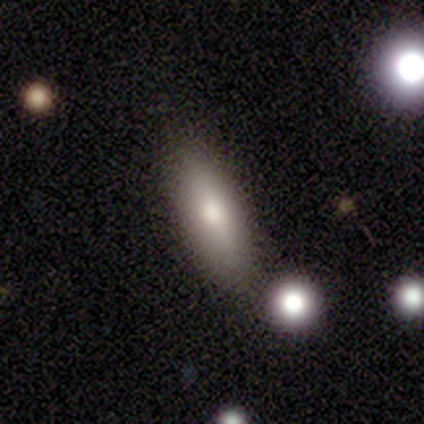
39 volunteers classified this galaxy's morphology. Smooth or featured: smooth — 74% (featured or disk — 21%)
How rounded: in between — 55% (cigar-shaped — 45%)
Merging: none — 78% (minor disturbance — 19%)